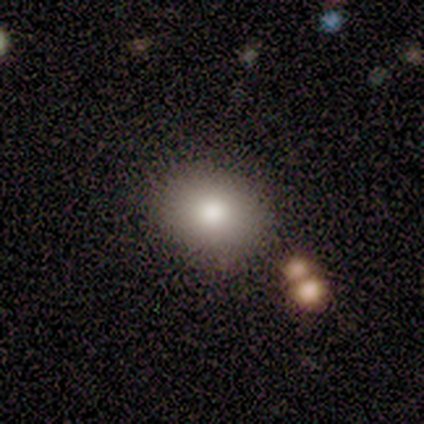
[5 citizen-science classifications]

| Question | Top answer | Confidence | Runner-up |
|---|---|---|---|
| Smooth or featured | smooth | 100% | — |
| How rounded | in between | 60% | round (40%) |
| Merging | none | 80% | minor disturbance (20%) |